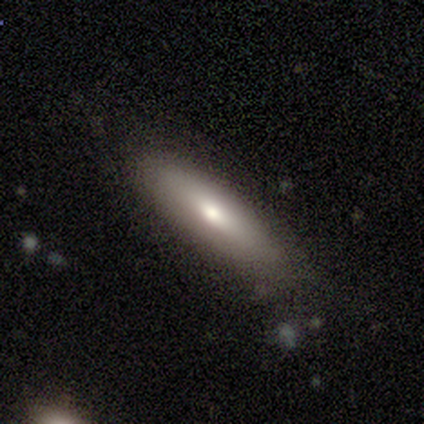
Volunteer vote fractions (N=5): A smooth galaxy with no disk features (100%) that is in between round and cigar-shaped (60%). Merging: none (60%).